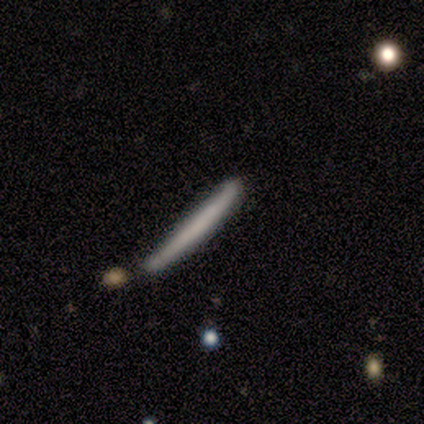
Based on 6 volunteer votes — Q: Smooth or featured?
A: smooth (67%); runner-up: featured or disk (17%)
Q: How rounded?
A: cigar-shaped (100%)
Q: Merging?
A: none (80%); runner-up: minor disturbance (20%)